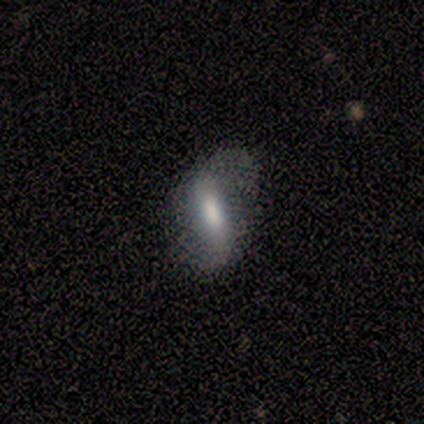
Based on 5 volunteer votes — A smooth galaxy with no disk features (60%) that is cigar-shaped (100%). Merging: none (40%, tied with minor disturbance).